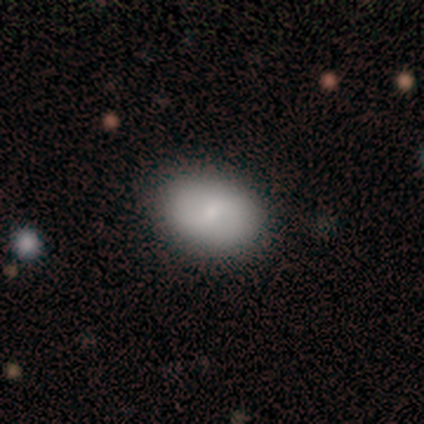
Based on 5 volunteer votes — Smooth or featured? 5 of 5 (100%) said smooth. How rounded? 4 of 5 (80%) said in between. Merging? 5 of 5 (100%) said none.